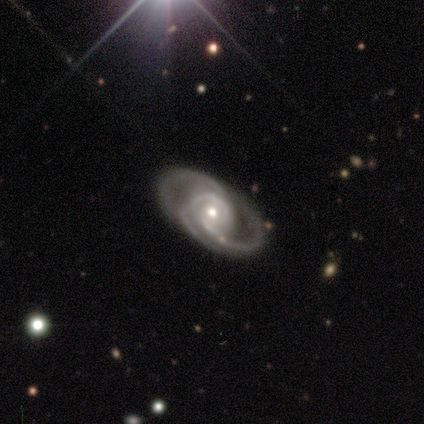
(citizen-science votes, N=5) Smooth or featured? 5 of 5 (100%) said featured or disk. Edge-on disk? 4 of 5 (80%) said no. Bar? 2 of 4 (50%) said no. Spiral arms? 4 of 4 (100%) said yes. Spiral winding? 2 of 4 (50%, tied with medium) said tight. Spiral arm count? 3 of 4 (75%) said 3. Bulge size? 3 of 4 (75%) said small. Merging? 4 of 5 (80%) said none.